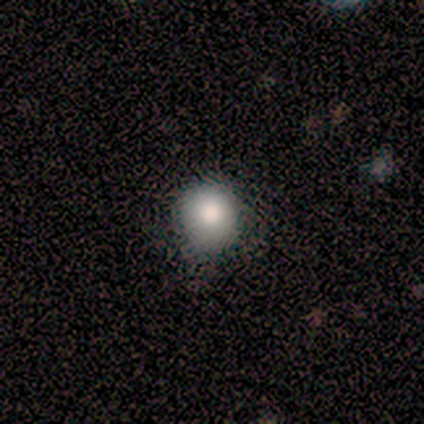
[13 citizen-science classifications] smooth_or_featured: smooth (p=0.92) [alt: featured or disk p=0.08]
how_rounded: round (p=1.00)
merging: none (p=0.69) [alt: minor disturbance p=0.31]